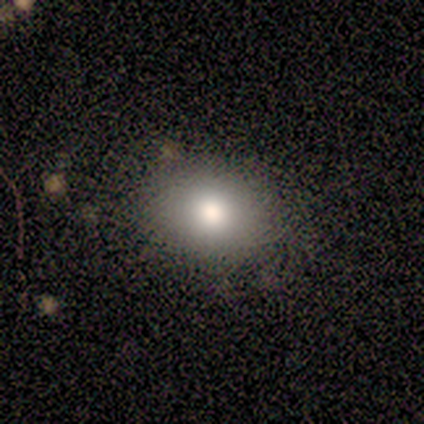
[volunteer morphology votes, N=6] A smooth galaxy with no disk features (83%) that is round (80%). Merging: none (100%).